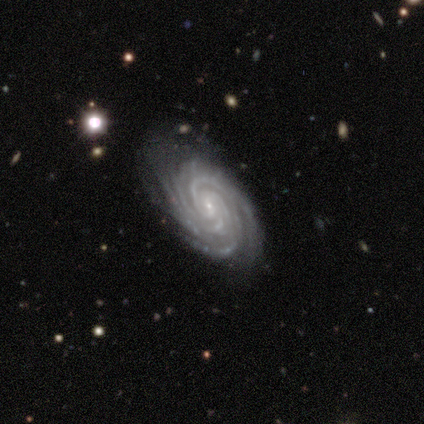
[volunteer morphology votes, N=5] Q: Smooth or featured?
A: featured or disk (100%)
Q: Edge-on disk?
A: no (100%)
Q: Bar?
A: no (60%); runner-up: strong (20%)
Q: Spiral arms?
A: yes (100%)
Q: Spiral winding?
A: tight (80%); runner-up: medium (20%)
Q: Spiral arm count?
A: 4 (60%); runner-up: 3 (20%)
Q: Bulge size?
A: small (100%)
Q: Merging?
A: none (80%); runner-up: minor disturbance (20%)